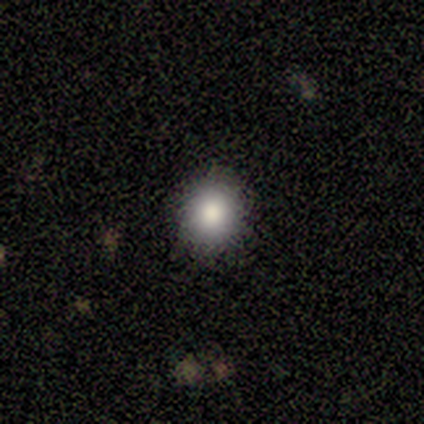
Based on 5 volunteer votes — smooth_or_featured: smooth (p=0.60) [alt: featured or disk p=0.20]
how_rounded: round (p=1.00)
merging: none (p=0.75) [alt: minor disturbance p=0.25]